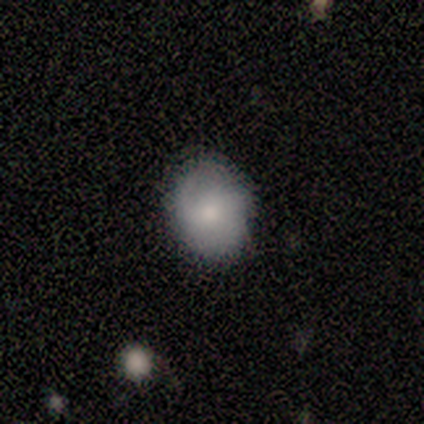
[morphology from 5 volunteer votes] A smooth galaxy with no disk features (60%) that is round (67%). Merging: none (100%).